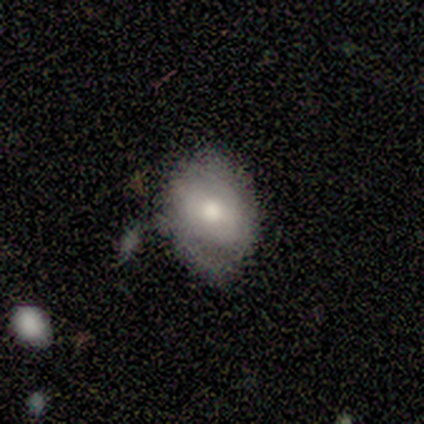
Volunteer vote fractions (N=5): smooth_or_featured: featured or disk (p=0.80) [alt: smooth p=0.20]
disk_edge_on: no (p=1.00)
bar: weak (p=0.50) [alt: strong p=0.25]
has_spiral_arms: yes (p=0.50) [tied with: no p=0.50]
spiral_winding: tight (p=0.50) [tied with: loose p=0.50]
spiral_arm_count: 2 (p=0.50) [tied with: can't tell p=0.50]
bulge_size: moderate (p=0.50) [alt: dominant p=0.25]
merging: none (p=0.80) [alt: minor disturbance p=0.20]